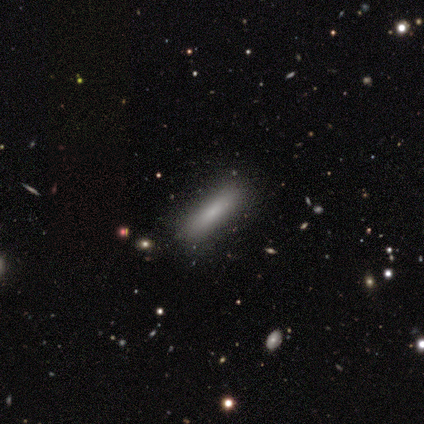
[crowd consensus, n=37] A smooth galaxy with no disk features (73%) that is cigar-shaped (89%). Merging: none (81%).